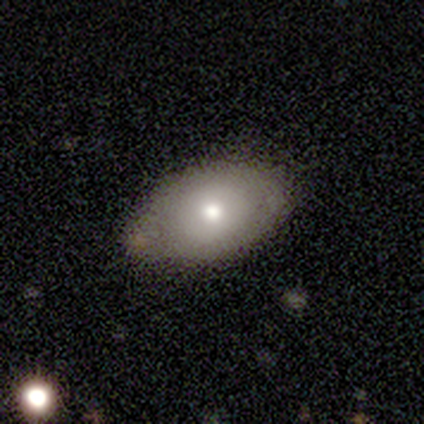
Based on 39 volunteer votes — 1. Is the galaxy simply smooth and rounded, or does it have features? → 79% smooth, 15% featured or disk, 5% star or artifact.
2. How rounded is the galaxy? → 84% in between, 16% round, 0% cigar-shaped.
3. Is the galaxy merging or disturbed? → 62% none, 22% minor disturbance, 11% merger, 5% major disturbance.